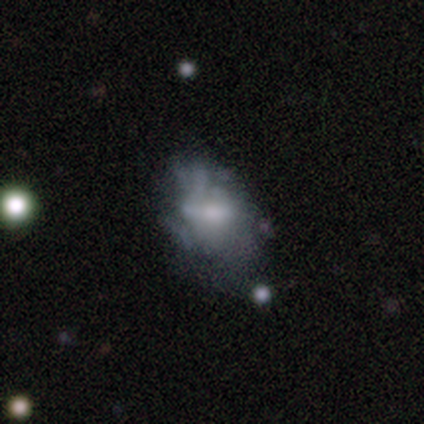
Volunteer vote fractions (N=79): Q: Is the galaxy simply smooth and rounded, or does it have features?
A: featured or disk — 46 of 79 (58%).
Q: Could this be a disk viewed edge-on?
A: no — 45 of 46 (98%).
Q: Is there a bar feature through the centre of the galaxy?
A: no — 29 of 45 (64%).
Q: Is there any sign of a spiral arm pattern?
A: no — 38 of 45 (84%).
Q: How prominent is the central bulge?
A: moderate — 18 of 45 (40%).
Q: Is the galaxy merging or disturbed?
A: none — 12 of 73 (16%, tied with minor disturbance).